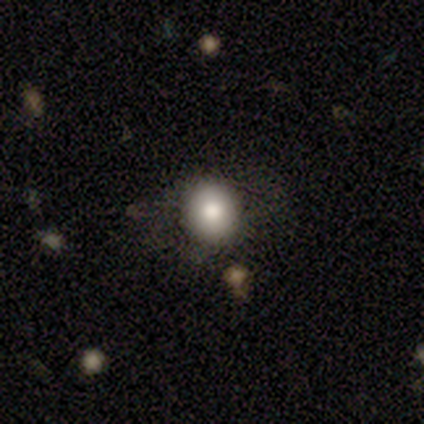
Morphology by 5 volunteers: Smooth or featured? smooth (80%)
How rounded? round (100%)
Merging? none (80%)